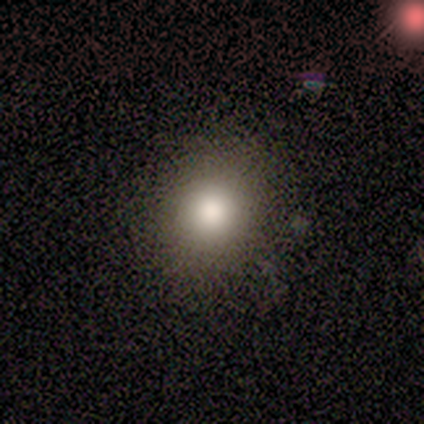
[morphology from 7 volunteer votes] Smooth or featured? 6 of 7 (86%) said smooth. How rounded? 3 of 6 (50%, tied with in between) said round. Merging? 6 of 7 (86%) said none.